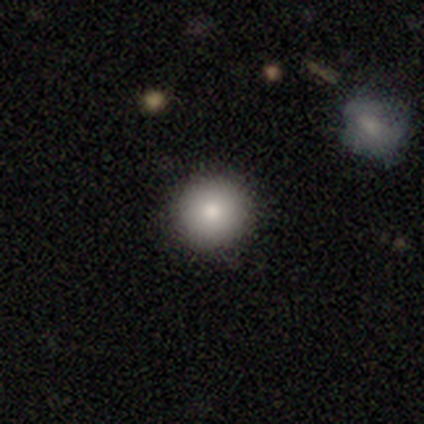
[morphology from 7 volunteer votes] smooth_or_featured: smooth (p=0.71) [alt: featured or disk p=0.29]
how_rounded: round (p=1.00)
merging: none (p=1.00)